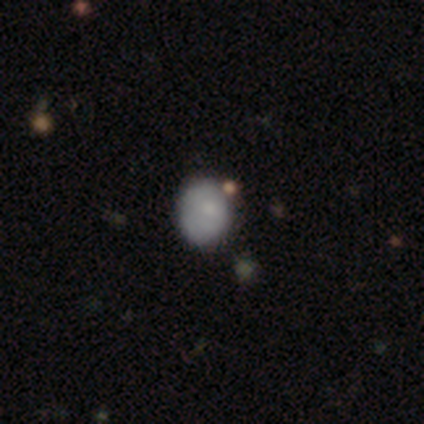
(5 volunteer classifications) A smooth galaxy with no disk features (80%) that is in between round and cigar-shaped (75%).

Vote fractions:
- Smooth or featured? smooth: 80% / featured or disk: 20% / star or artifact: 0%
- How rounded? in between: 75% / round: 25% / cigar-shaped: 0%
- Merging? none: 60% / major disturbance: 20% / merger: 20% / minor disturbance: 0%